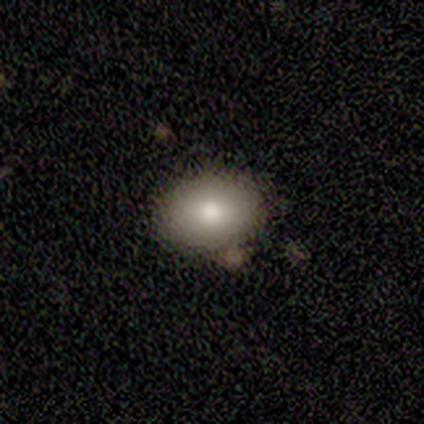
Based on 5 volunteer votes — Smooth or featured? smooth (100%)
How rounded? in between (80%)
Merging? none (80%)